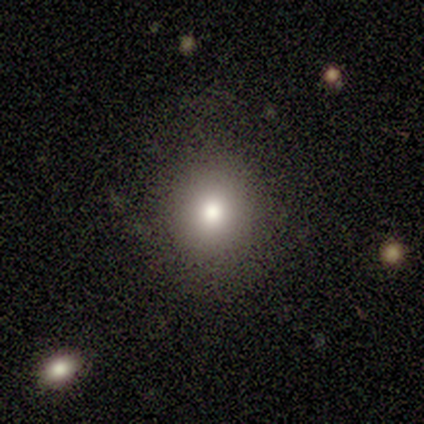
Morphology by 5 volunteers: Consensus on every question: smooth or featured — smooth (100%); how rounded — round (100%); merging — none (100%).